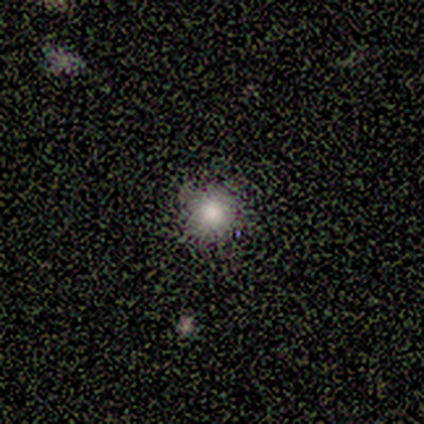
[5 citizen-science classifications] Smooth or featured?
  - smooth: 80% *
  - star or artifact: 20%
  - featured or disk: 0%
How rounded?
  - round: 100% *
  - in between: 0%
  - cigar-shaped: 0%
Merging?
  - none: 100% *
  - minor disturbance: 0%
  - major disturbance: 0%
  - merger: 0%